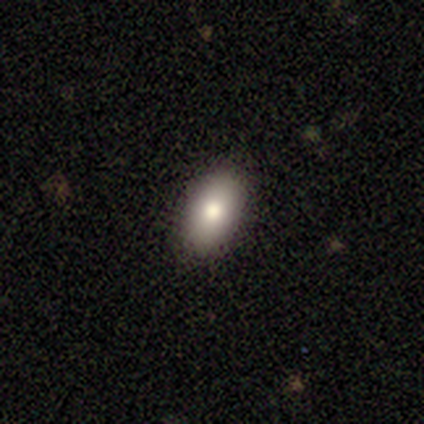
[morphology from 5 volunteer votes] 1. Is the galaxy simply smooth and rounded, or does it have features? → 40% smooth (tied), 40% star or artifact (tied), 20% featured or disk.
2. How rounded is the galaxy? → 100% in between, 0% round, 0% cigar-shaped.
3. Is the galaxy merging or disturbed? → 67% none, 33% minor disturbance, 0% major disturbance, 0% merger.